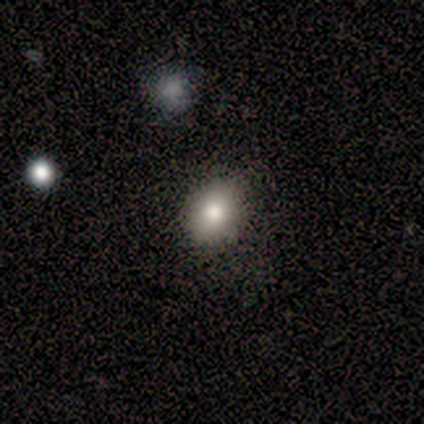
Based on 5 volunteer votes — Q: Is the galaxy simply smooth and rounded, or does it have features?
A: smooth — 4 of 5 (80%).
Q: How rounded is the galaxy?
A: round — 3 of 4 (75%).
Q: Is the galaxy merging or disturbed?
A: none — 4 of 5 (80%).